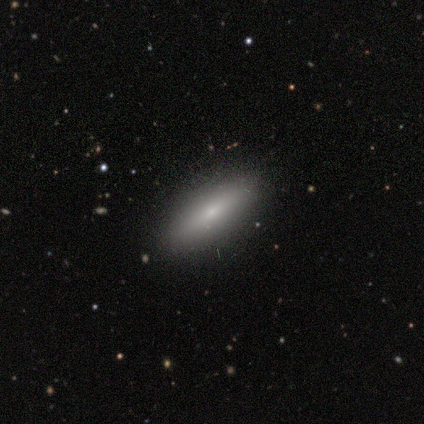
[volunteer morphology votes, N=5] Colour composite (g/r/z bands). It shows a smooth galaxy with no disk features (60%) that is cigar-shaped (67%). Merging: none (100%).